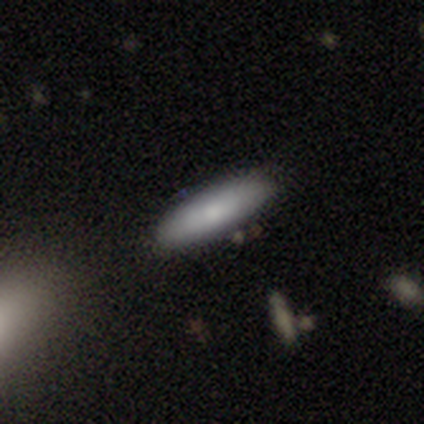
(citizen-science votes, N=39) This is likely a smooth galaxy (69%). How rounded: likely cigar-shaped (63%). Merging: clearly none (82%).